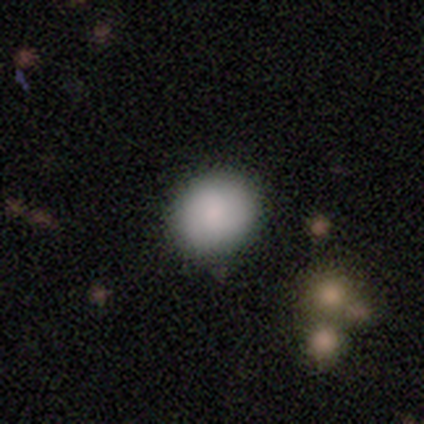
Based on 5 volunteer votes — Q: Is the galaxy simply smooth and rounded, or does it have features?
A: smooth — 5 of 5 (100%).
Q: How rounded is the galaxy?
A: in between — 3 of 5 (60%).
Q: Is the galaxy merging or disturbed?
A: none — 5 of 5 (100%).